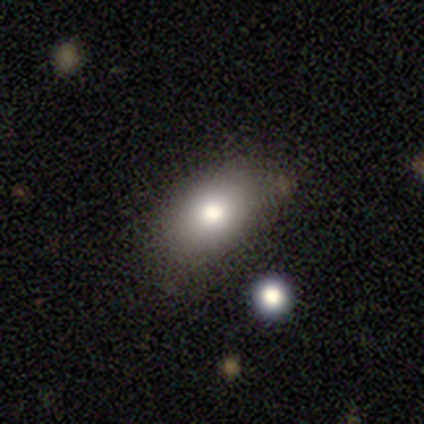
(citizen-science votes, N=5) Overall: smooth (40%, tied with star or artifact). How rounded: round (50%, tied with in between). Merging: none (100%).